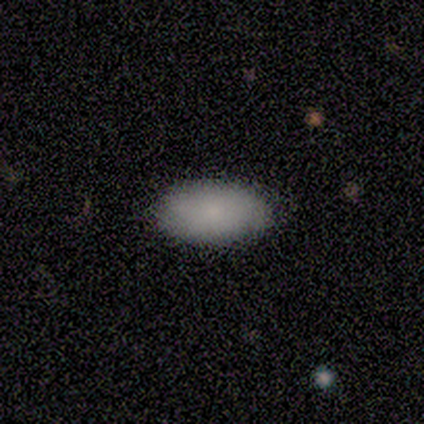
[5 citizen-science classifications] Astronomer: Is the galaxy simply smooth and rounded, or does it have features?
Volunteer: smooth — 100%.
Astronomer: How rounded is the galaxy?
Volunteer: in between — 100%.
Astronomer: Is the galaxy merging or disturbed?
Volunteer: none — 80%.